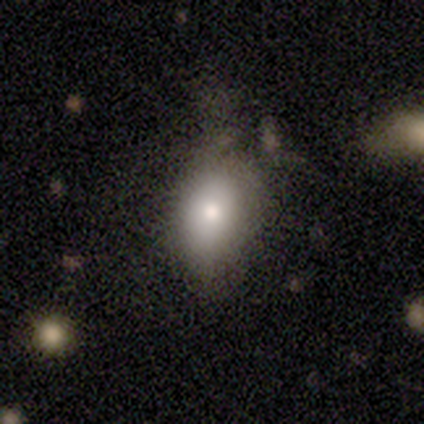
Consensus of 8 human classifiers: Smooth or featured? smooth (62%)
How rounded? in between (100%)
Merging? minor disturbance (62%)